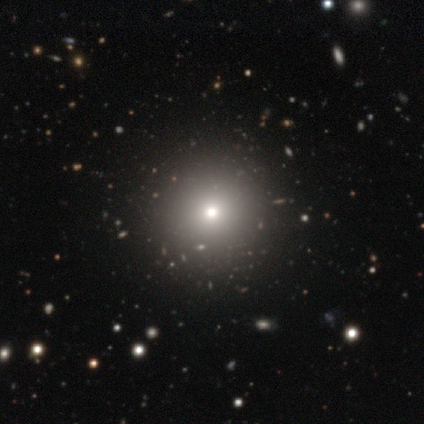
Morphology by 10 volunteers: smooth 60%, star or artifact 30%, featured or disk 10%. Down the decision tree: how rounded — round (100%); merging — none (100%).